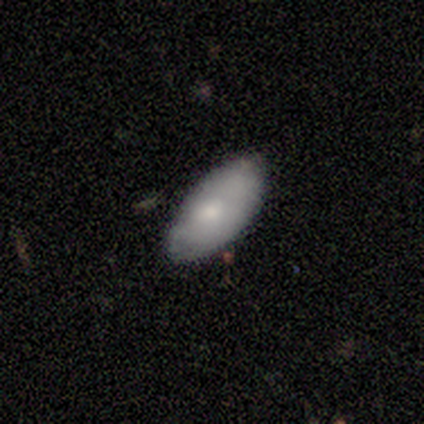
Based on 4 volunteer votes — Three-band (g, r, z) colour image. It shows a smooth galaxy with no disk features (100%) that is in between round and cigar-shaped (100%). Merging: minor disturbance (75%).